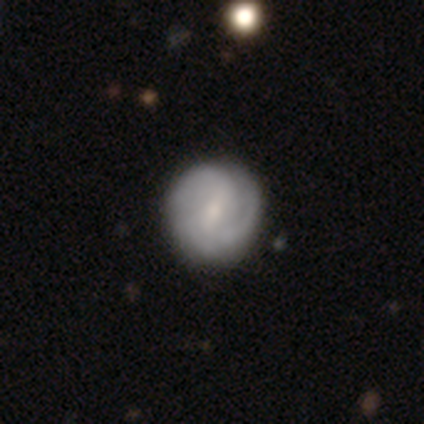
featured or disk 68%, smooth 32%, star or artifact 0%. Down the decision tree: edge-on disk — no (100%); bar — weak (77%); spiral arms — yes (92%); spiral arm count — 2 (46%); spiral winding — medium (50%); bulge size — moderate (50%); merging — none (63%).